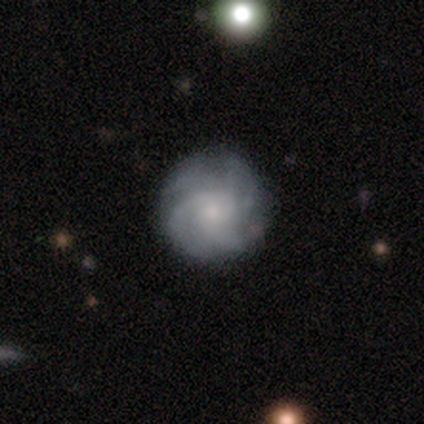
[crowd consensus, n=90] Smooth or featured?
  - featured or disk: 70% *
  - smooth: 21%
  - star or artifact: 9%
Edge-on disk?
  - no: 95% *
  - yes: 5%
Bar?
  - no: 77% *
  - weak: 18%
  - strong: 5%
Spiral arms?
  - yes: 95% *
  - no: 5%
Spiral winding?
  - tight: 54% *
  - medium: 37%
  - loose: 9%
Spiral arm count?
  - can't tell: 32% *
  - more than 4: 30%
  - 4: 25%
  - 3: 7%
  - 2: 5%
  - 1: 2%
Bulge size?
  - small: 65% *
  - moderate: 30%
  - none: 5%
  - dominant: 0%
  - large: 0%
Merging?
  - none: 80% *
  - minor disturbance: 16%
  - major disturbance: 2%
  - merger: 1%